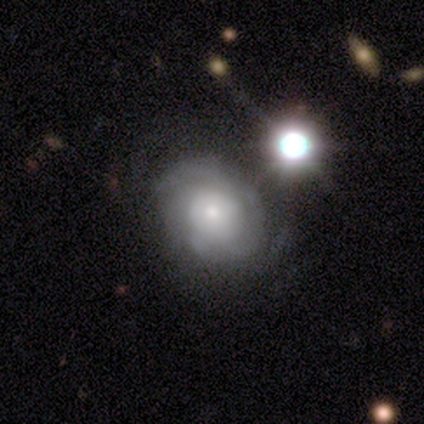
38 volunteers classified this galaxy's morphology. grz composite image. It shows a featured or disk galaxy (74%) with no bar (81%), tight (43%, tied with medium) spiral arms (78%) and a small central bulge (44%). Merging: none (62%).